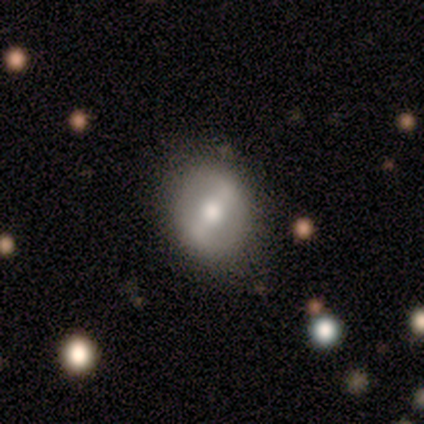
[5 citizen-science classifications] A smooth galaxy with no disk features (60%) that is in between round and cigar-shaped (67%).

Vote fractions:
- Smooth or featured? smooth: 60% / featured or disk: 20% / star or artifact: 20%
- How rounded? in between: 67% / round: 33% / cigar-shaped: 0%
- Merging? none: 50% (tied) / minor disturbance: 50% (tied) / major disturbance: 0% / merger: 0%